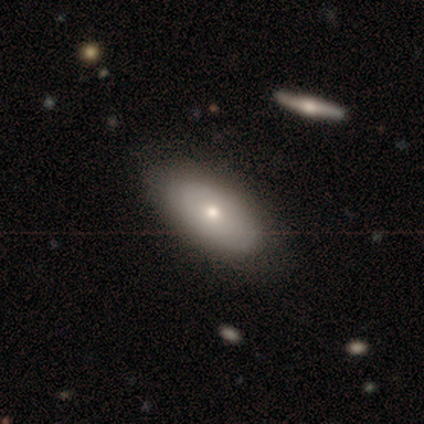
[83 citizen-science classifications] smooth-or-featured: smooth: 63% | featured or disk: 33% | star or artifact: 5%
  how-rounded: in between: 90% | cigar-shaped: 8% | round: 2%
  merging: none: 75% | minor disturbance: 15% | major disturbance: 5% | merger: 5%